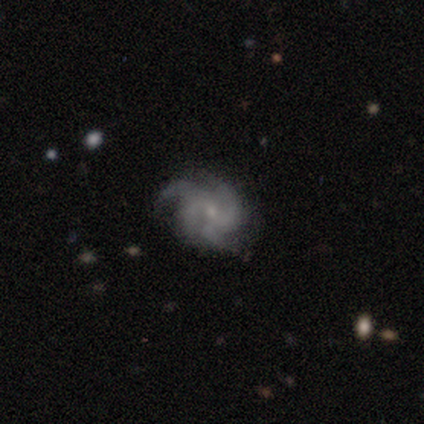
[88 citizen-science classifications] Smooth or featured: featured or disk — 85% (star or artifact — 8%)
Edge-on disk: no — 97% (yes — 3%)
Bar: no — 66% (weak — 29%)
Spiral arms: yes — 99% (no — 1%)
Spiral winding: tight — 44% (medium — 43%)
Spiral arm count: 4 — 39% (3 — 33%)
Bulge size: small — 81% (moderate — 11%)
Merging: none — 68% (minor disturbance — 26%)